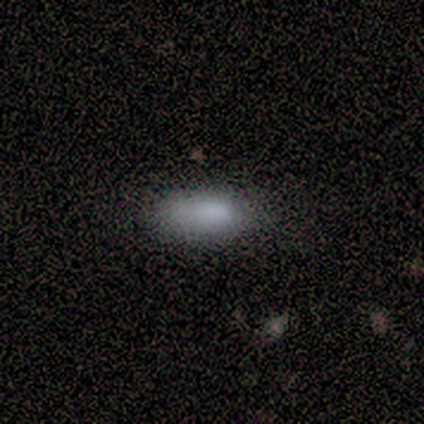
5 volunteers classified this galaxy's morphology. A smooth galaxy with no disk features (60%) that is in between round and cigar-shaped (100%).

Vote fractions:
- Smooth or featured? smooth: 60% / star or artifact: 40% / featured or disk: 0%
- How rounded? in between: 100% / round: 0% / cigar-shaped: 0%
- Merging? none: 67% / minor disturbance: 33% / major disturbance: 0% / merger: 0%